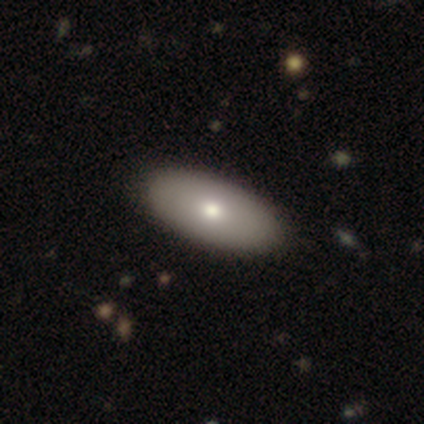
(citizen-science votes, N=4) Smooth or featured? smooth (50%)
How rounded? in between (100%)
Merging? none (100%)